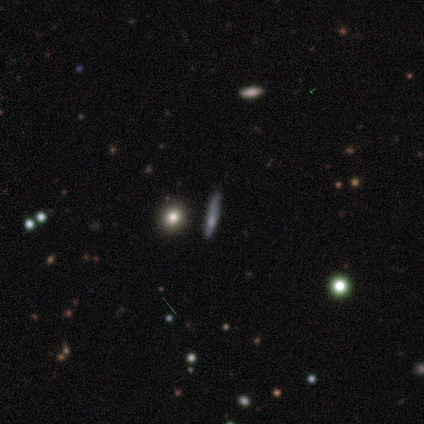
Smooth or featured?
  - smooth: 75% *
  - star or artifact: 25%
  - featured or disk: 0%
How rounded?
  - cigar-shaped: 100% *
  - round: 0%
  - in between: 0%
Merging?
  - none: 100% *
  - minor disturbance: 0%
  - major disturbance: 0%
  - merger: 0%